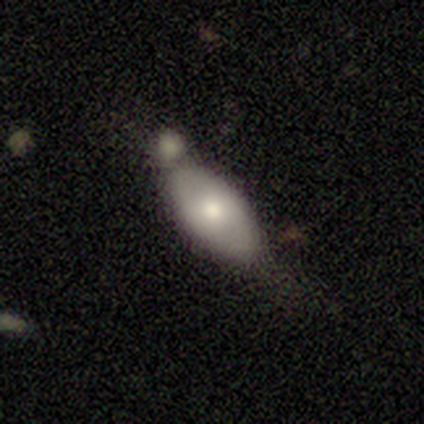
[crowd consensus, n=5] Morphology: type=featured or disk (60%); edge-on=no (100%); bar=weak (100%); spiral arms=no (100%); bulge=small (67%); merging=minor disturbance (40%, tied with merger).